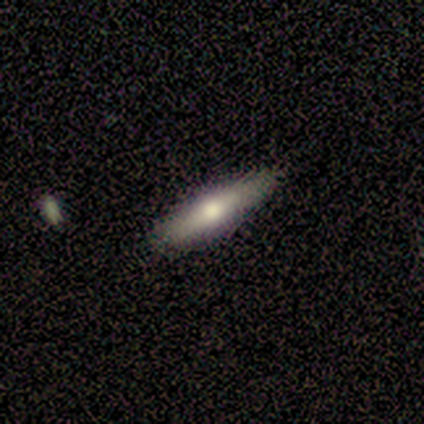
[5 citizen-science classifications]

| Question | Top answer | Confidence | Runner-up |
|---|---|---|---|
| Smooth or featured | featured or disk | 80% | star or artifact (20%) |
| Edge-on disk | yes | 75% | no (25%) |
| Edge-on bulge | rounded | 67% | boxy (33%) |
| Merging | none | 75% | minor disturbance (25%) |